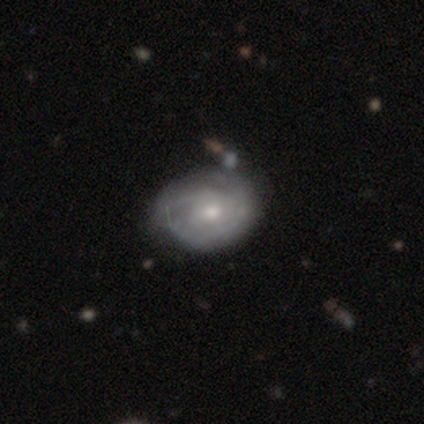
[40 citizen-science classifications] smooth_or_featured: featured or disk (p=0.82) [alt: smooth p=0.15]
disk_edge_on: no (p=1.00)
bar: no (p=0.73) [alt: weak p=0.24]
has_spiral_arms: yes (p=0.76) [alt: no p=0.24]
spiral_winding: tight (p=0.64) [alt: medium p=0.24]
spiral_arm_count: can't tell (p=0.52) [alt: 1 p=0.20]
bulge_size: moderate (p=0.52) [alt: small p=0.42]
merging: none (p=0.36) [alt: minor disturbance p=0.28]